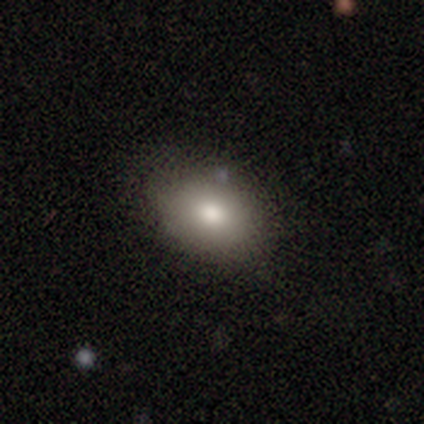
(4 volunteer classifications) This appears to be a smooth galaxy with no disk features (75%) that is in between round and cigar-shaped (67%). Merging: none (100%).